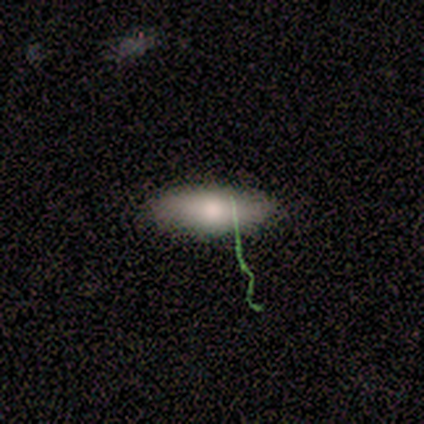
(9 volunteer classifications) Morphology: type=smooth (89%); roundness=in between (88%); merging=none (88%).